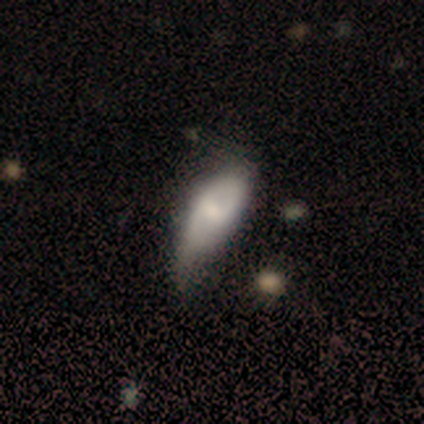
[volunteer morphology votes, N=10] Q: Smooth or featured?
A: smooth (60%); runner-up: featured or disk (40%)
Q: How rounded?
A: in between (83%); runner-up: cigar-shaped (17%)
Q: Merging?
A: minor disturbance (60%); runner-up: none (30%)